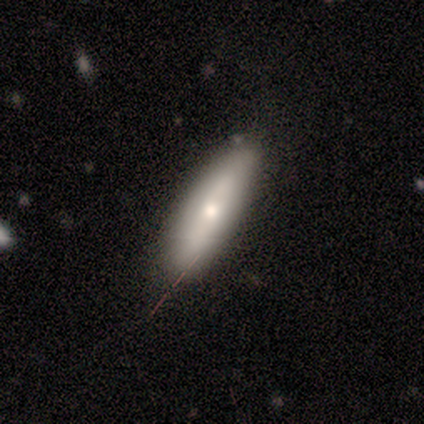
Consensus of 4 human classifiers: Overall: smooth (50%, tied with featured or disk). How rounded: cigar-shaped (100%). Merging: none (75%).